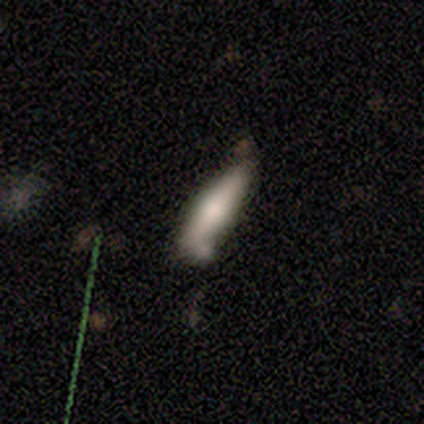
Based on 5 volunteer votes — Overall: smooth (80%). How rounded: cigar-shaped (100%). Merging: none (60%; minor disturbance 40%).